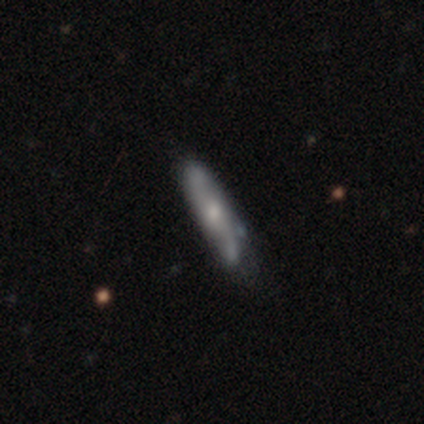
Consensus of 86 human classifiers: Morphology: type=featured or disk (51%); edge-on=yes (55%); edge-on bulge=rounded (67%); merging=none (57%).